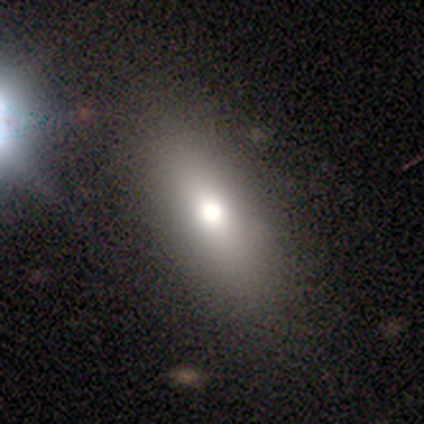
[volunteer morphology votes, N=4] Volunteers were most divided on "how rounded": in between: 50%, round: 25%, cigar-shaped: 25%. More confident: smooth or featured — smooth (100%); merging — none (75%).